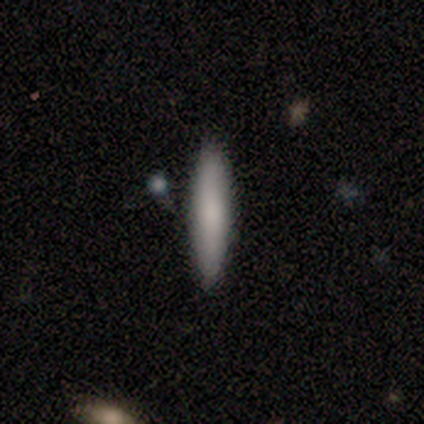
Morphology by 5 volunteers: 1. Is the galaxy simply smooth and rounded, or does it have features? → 100% smooth, 0% featured or disk, 0% star or artifact.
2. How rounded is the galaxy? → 80% cigar-shaped, 20% in between, 0% round.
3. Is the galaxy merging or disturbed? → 60% none, 20% minor disturbance, 20% merger, 0% major disturbance.